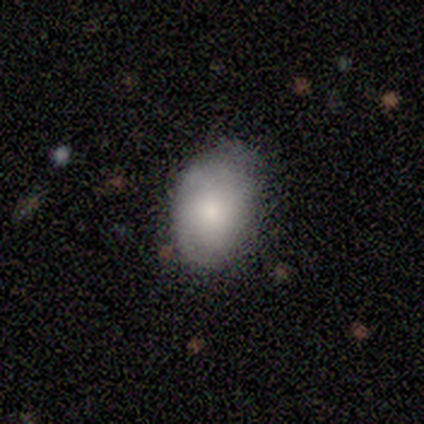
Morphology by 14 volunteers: This appears to be a smooth galaxy with no disk features (79%) that is in between round and cigar-shaped (73%). Merging: none (79%).